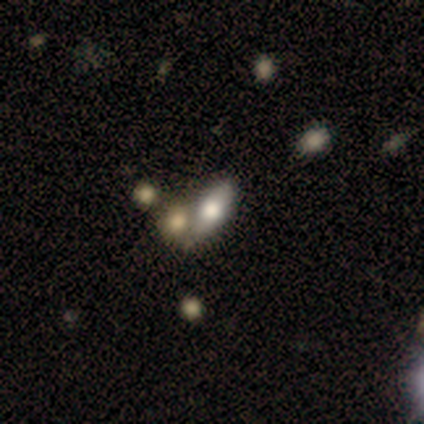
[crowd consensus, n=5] smooth-or-featured: smooth: 60% | featured or disk: 40% | star or artifact: 0%
  how-rounded: cigar-shaped: 67% | in between: 33% | round: 0%
  merging: merger: 60% | none: 40% | minor disturbance: 0% | major disturbance: 0%